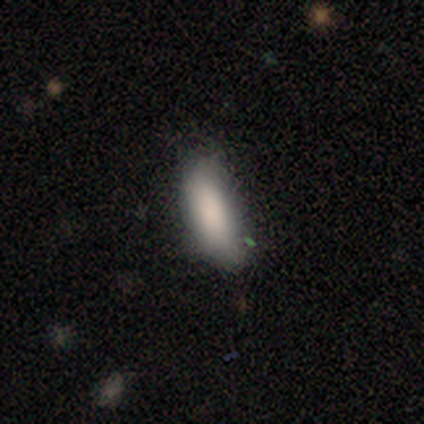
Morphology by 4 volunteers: smooth-or-featured: smooth: 100% | featured or disk: 0% | star or artifact: 0%
  how-rounded: in between: 75% | cigar-shaped: 25% | round: 0%
  merging: none: 75% | minor disturbance: 25% | major disturbance: 0% | merger: 0%